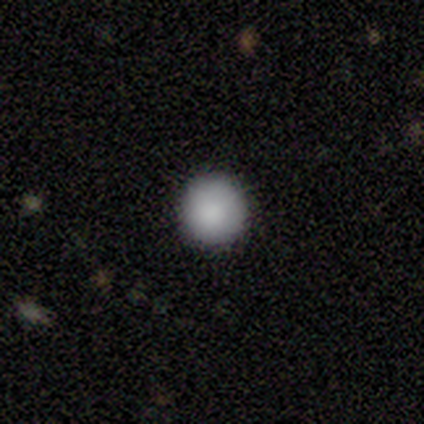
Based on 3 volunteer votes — Smooth or featured? smooth (67%)
How rounded? round (100%)
Merging? none (100%)